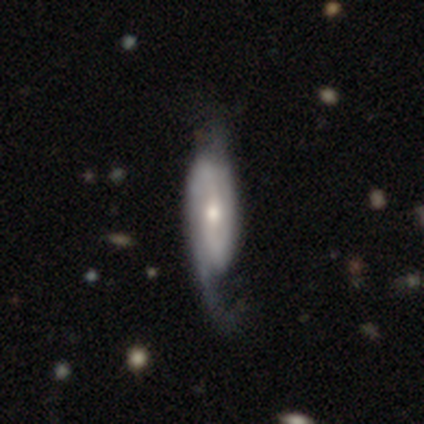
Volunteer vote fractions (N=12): Smooth or featured?
  - featured or disk: 67% *
  - smooth: 33%
  - star or artifact: 0%
Edge-on disk?
  - no: 75% *
  - yes: 25%
Bar?
  - weak: 67% *
  - no: 33%
  - strong: 0%
Spiral arms?
  - yes: 83% *
  - no: 17%
Spiral winding?
  - medium: 40% * (tied)
  - loose: 40% * (tied)
  - tight: 20%
Spiral arm count?
  - 2: 100% *
  - 1: 0%
  - 3: 0%
  - 4: 0%
  - more than 4: 0%
  - can't tell: 0%
Bulge size?
  - moderate: 50% * (tied)
  - small: 50% * (tied)
  - dominant: 0%
  - large: 0%
  - none: 0%
Merging?
  - none: 50% *
  - major disturbance: 25%
  - minor disturbance: 17%
  - merger: 8%